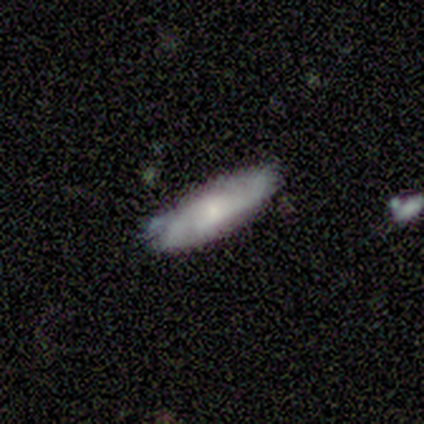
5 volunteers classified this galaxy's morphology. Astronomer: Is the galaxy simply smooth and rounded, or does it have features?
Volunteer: smooth — 60% (runner-up: featured or disk, 40%).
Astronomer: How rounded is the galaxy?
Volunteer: cigar-shaped — 100%.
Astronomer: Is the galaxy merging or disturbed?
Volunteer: none — 60% (runner-up: minor disturbance, 40%).